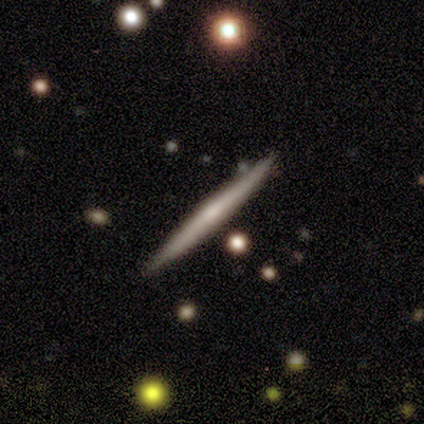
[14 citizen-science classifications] smooth-or-featured: smooth: 50% (tied) | featured or disk: 50% (tied) | star or artifact: 0%
  how-rounded: cigar-shaped: 100% | round: 0% | in between: 0%
  merging: none: 100% | minor disturbance: 0% | major disturbance: 0% | merger: 0%